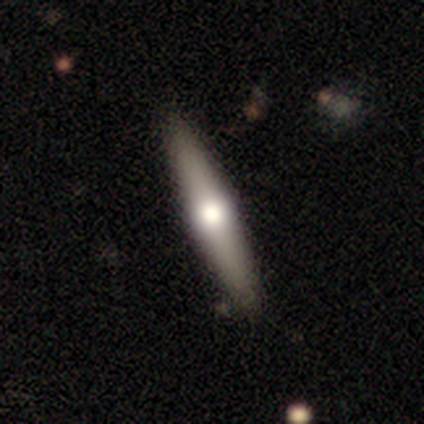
This appears to be a smooth galaxy with no disk features (80%) that is cigar-shaped (100%). Merging: none (100%).